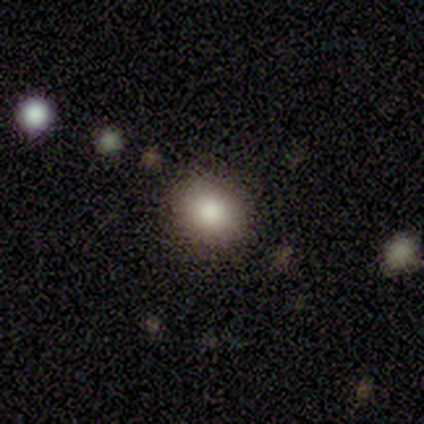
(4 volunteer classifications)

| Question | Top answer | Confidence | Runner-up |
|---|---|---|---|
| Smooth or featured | smooth | 100% | — |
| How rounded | round | 75% | in between (25%) |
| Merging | none | 100% | — |